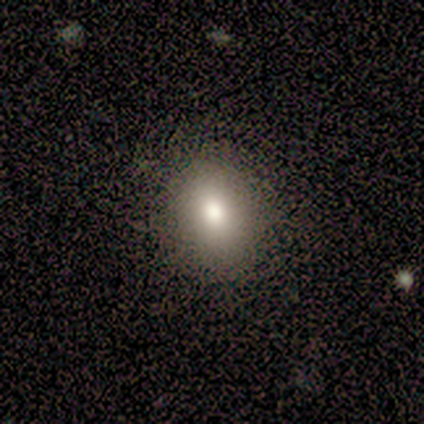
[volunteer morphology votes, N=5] type=smooth (80%); roundness=round (50%, tied with in between); merging=none (100%).